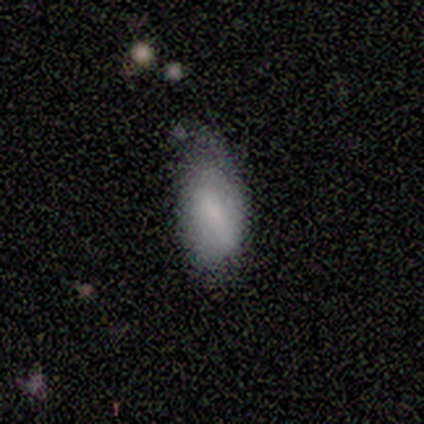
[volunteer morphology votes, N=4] Smooth or featured? smooth (75%)
How rounded? in between (100%)
Merging? minor disturbance (75%)